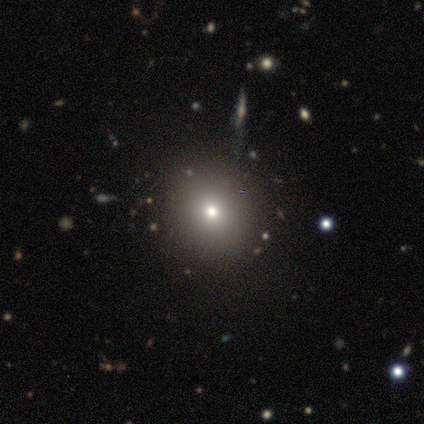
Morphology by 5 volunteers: A smooth galaxy with no disk features (100%) that is round (100%). Merging: none (80%).